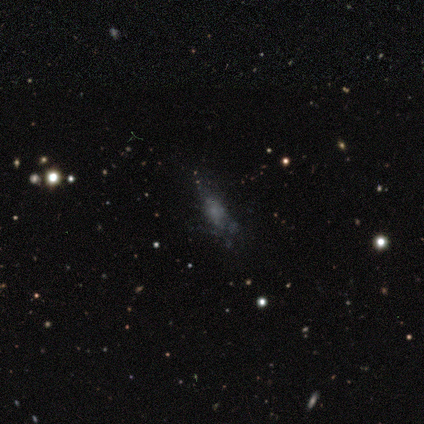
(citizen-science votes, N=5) Smooth or featured? smooth (40%, tied with featured or disk)
How rounded? in between (100%)
Merging? none (50%, tied with minor disturbance)